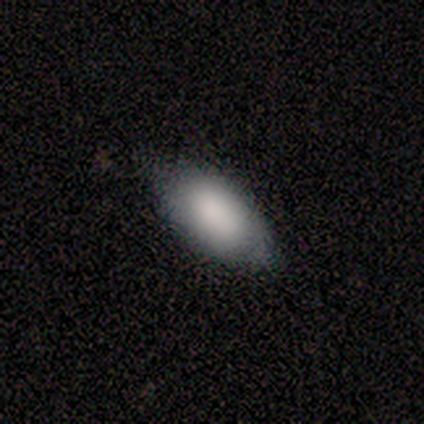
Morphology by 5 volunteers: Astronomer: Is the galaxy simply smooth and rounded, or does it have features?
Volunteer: smooth — 80%.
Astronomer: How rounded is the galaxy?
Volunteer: in between — 100%.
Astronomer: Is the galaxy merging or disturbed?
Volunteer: none — 80%.